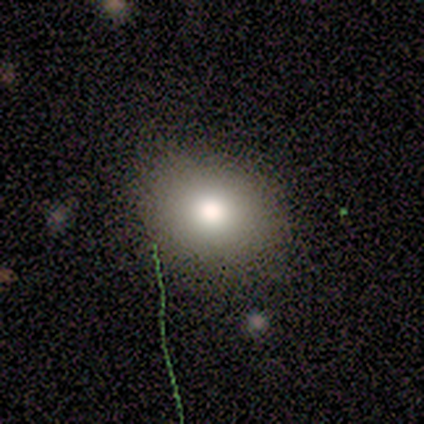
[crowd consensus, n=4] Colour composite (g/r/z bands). It shows a smooth galaxy with no disk features (100%) that is round (50%, tied with in between). Merging: none (100%).